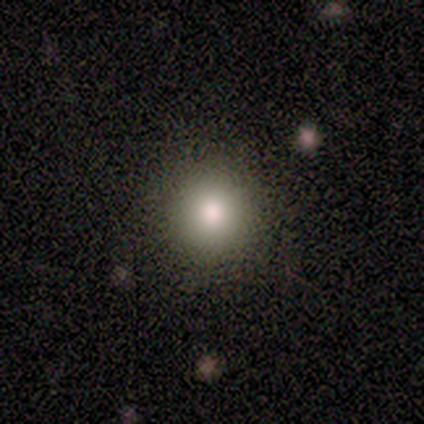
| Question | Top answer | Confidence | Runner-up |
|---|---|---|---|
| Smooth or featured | smooth | 60% | featured or disk (20%) |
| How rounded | round | 100% | — |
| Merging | none | 75% | minor disturbance (25%) |